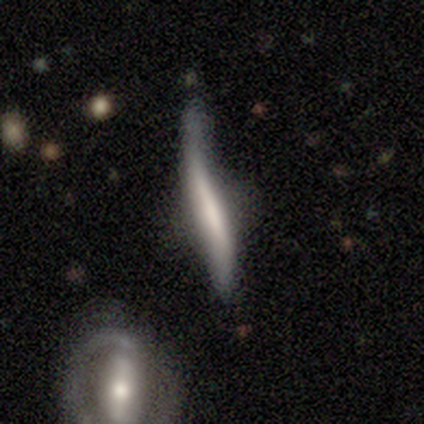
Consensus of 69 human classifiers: A featured or disk galaxy (57%) viewed edge-on (90%) with no central bulge (34%, tied with rounded).

Vote fractions:
- Smooth or featured? featured or disk: 57% / smooth: 39% / star or artifact: 4%
- Edge-on disk? yes: 90% / no: 10%
- Edge-on bulge? none: 34% (tied) / rounded: 34% (tied) / boxy: 31%
- Merging? minor disturbance: 45% / major disturbance: 26% / none: 21% / merger: 8%